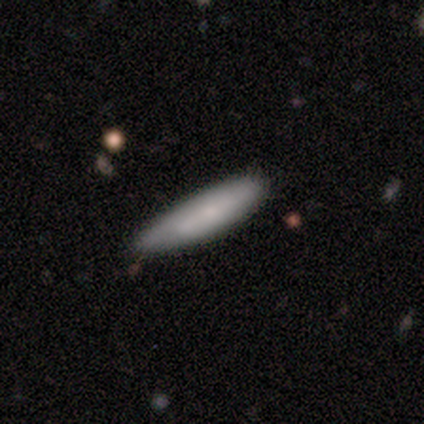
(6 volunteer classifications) A smooth galaxy with no disk features (83%) that is cigar-shaped (80%).

Vote fractions:
- Smooth or featured? smooth: 83% / featured or disk: 17% / star or artifact: 0%
- How rounded? cigar-shaped: 80% / in between: 20% / round: 0%
- Merging? none: 67% / minor disturbance: 33% / major disturbance: 0% / merger: 0%